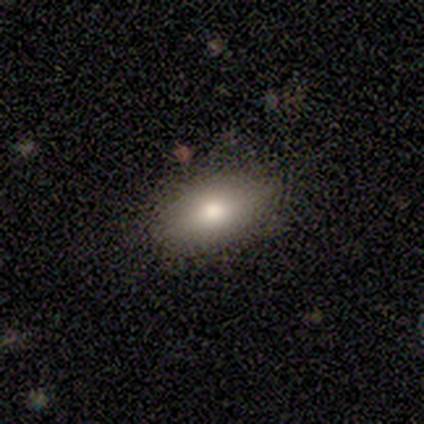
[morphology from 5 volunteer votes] type=smooth (80%); roundness=in between (100%); merging=none (100%).